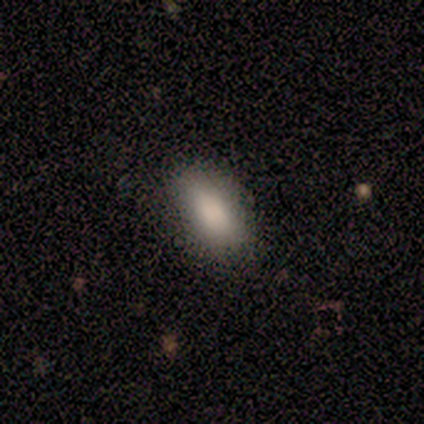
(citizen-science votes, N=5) A smooth galaxy with no disk features (100%) that is in between round and cigar-shaped (100%). Merging: none (100%).